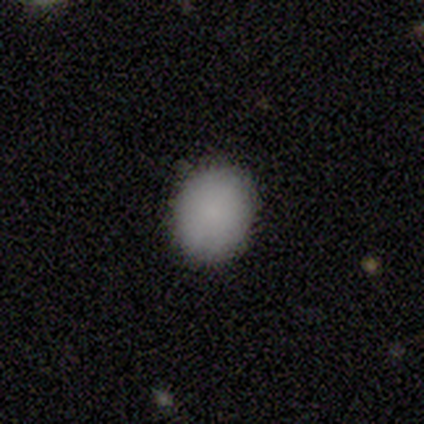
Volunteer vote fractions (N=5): smooth_or_featured: smooth (p=0.80) [alt: star or artifact p=0.20]
how_rounded: round (p=0.75) [alt: in between p=0.25]
merging: none (p=0.75) [alt: minor disturbance p=0.25]